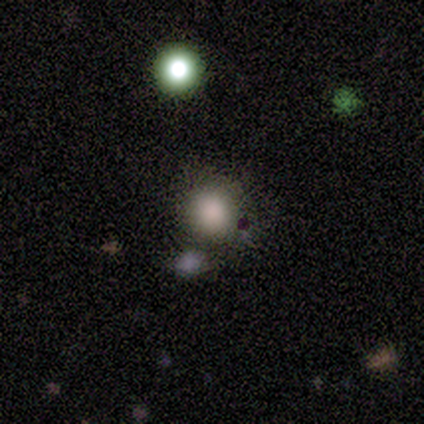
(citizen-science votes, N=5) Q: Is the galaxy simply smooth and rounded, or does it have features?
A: smooth — 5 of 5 (100%).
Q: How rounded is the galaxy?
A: round — 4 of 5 (80%).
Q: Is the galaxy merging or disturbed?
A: none — 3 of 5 (60%).